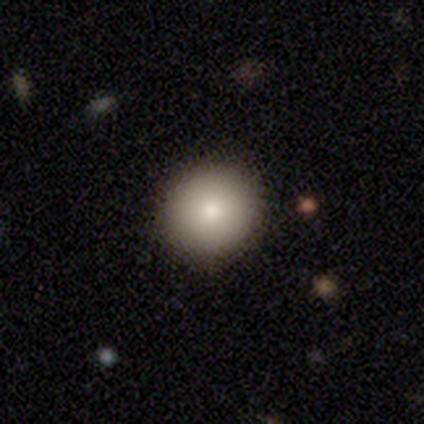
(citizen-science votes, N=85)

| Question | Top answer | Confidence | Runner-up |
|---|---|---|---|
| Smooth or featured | smooth | 80% | star or artifact (13%) |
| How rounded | round | 96% | in between (4%) |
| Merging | none | 88% | minor disturbance (9%) |